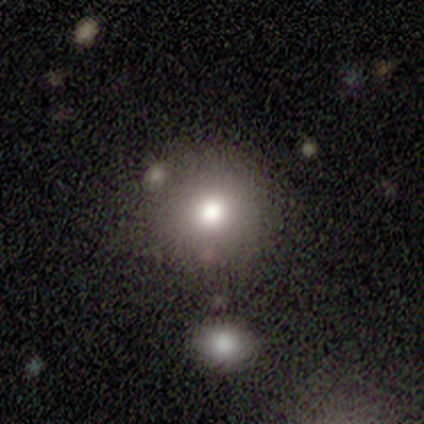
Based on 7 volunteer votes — Overall: smooth (71%). How rounded: round (100%). Merging: none (80%).